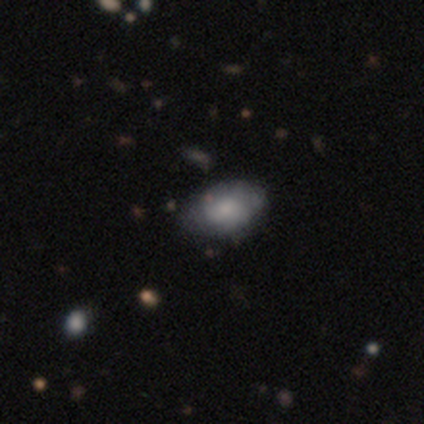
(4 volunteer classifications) smooth_or_featured: smooth (p=0.75) [alt: featured or disk p=0.25]
how_rounded: in between (p=0.67) [alt: round p=0.33]
merging: none (p=0.75) [alt: minor disturbance p=0.25]